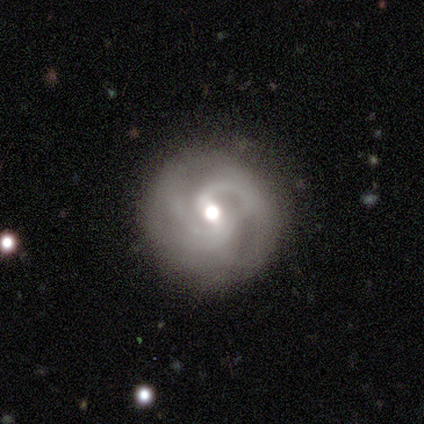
smooth_or_featured: featured or disk (p=1.00)
disk_edge_on: no (p=1.00)
bar: weak (p=0.80) [alt: strong p=0.20]
has_spiral_arms: yes (p=1.00)
spiral_winding: medium (p=0.80) [alt: loose p=0.20]
spiral_arm_count: 2 (p=0.60) [alt: can't tell p=0.40]
bulge_size: moderate (p=0.80) [alt: small p=0.20]
merging: none (p=1.00)